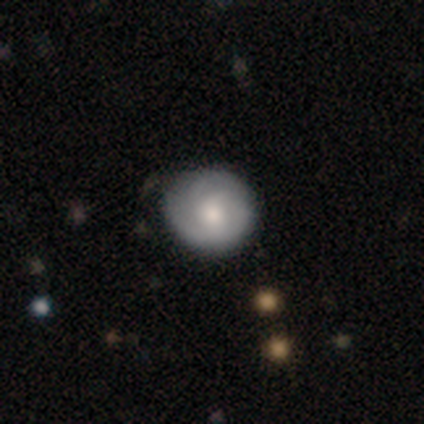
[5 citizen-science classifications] Smooth or featured: featured or disk — 60% (smooth — 40%)
Edge-on disk: no — 100%
Bar: no — 100%
Spiral arms: yes — 67% (no — 33%)
Spiral winding: tight — 50% (tied with medium — 50%)
Spiral arm count: can't tell — 100%
Bulge size: moderate — 100%
Merging: none — 60% (minor disturbance — 40%)